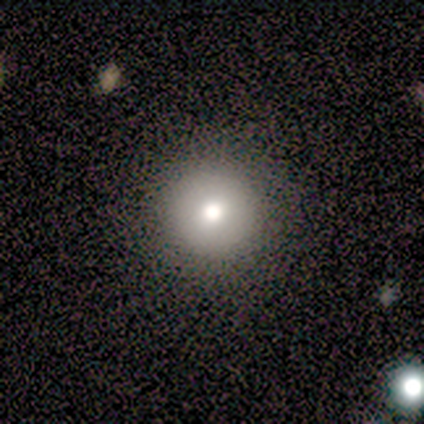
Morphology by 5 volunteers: This is clearly a smooth galaxy (80%). How rounded: clearly round (100%). Merging: likely none (75%).